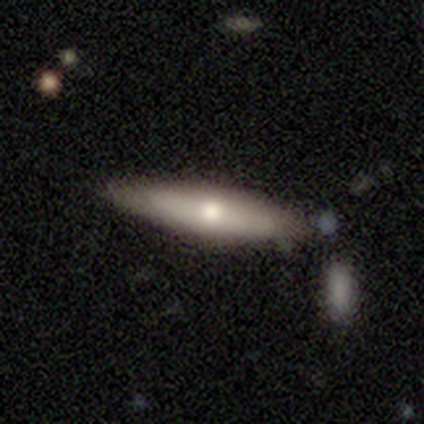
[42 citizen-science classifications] Volunteers were most divided on "smooth or featured": smooth: 62%, featured or disk: 31%, star or artifact: 7%. More confident: merging — none (77%); how rounded — cigar-shaped (73%).